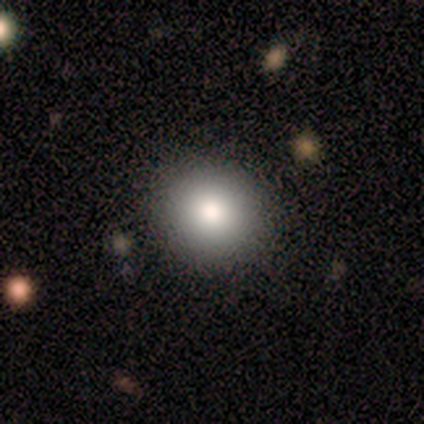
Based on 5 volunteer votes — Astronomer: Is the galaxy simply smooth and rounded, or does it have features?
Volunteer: smooth — 80%.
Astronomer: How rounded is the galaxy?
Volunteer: round — 100%.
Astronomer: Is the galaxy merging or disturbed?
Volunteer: none — 80%.